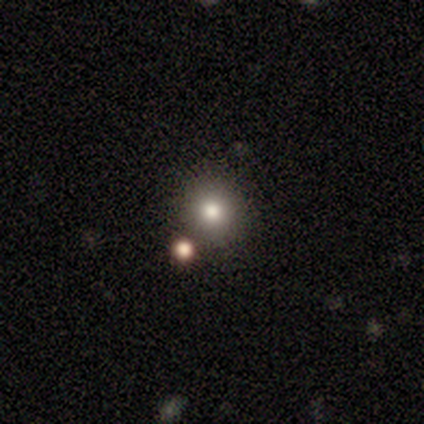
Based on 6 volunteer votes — Smooth or featured?
  - smooth: 67% *
  - star or artifact: 33%
  - featured or disk: 0%
How rounded?
  - round: 100% *
  - in between: 0%
  - cigar-shaped: 0%
Merging?
  - none: 100% *
  - minor disturbance: 0%
  - major disturbance: 0%
  - merger: 0%